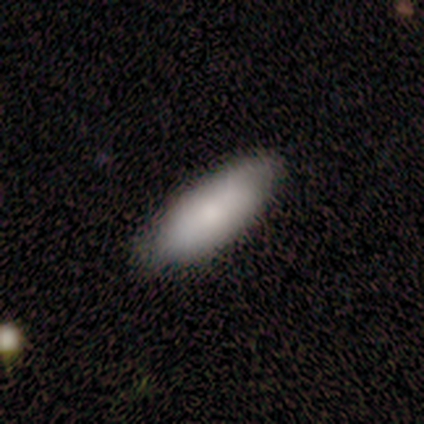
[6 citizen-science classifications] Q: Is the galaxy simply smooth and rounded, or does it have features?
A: smooth — 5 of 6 (83%).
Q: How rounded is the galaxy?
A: in between — 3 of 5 (60%).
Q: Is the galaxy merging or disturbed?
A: none — 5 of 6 (83%).